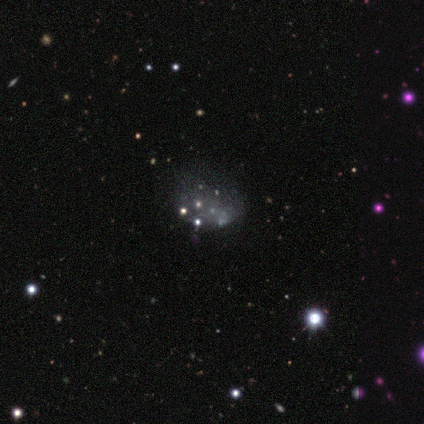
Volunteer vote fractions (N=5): This appears to be a star or artifact, not a galaxy (60%).